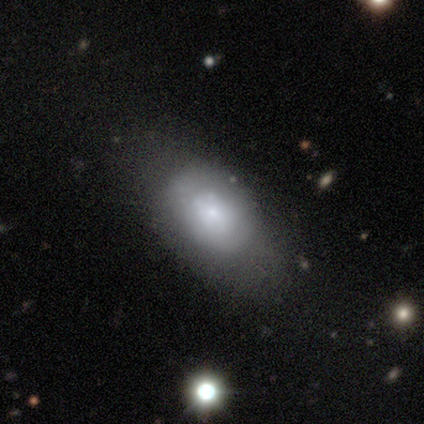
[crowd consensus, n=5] Smooth or featured? 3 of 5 (60%) said smooth. How rounded? 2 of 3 (67%) said in between. Merging? 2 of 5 (40%, tied with minor disturbance) said none.